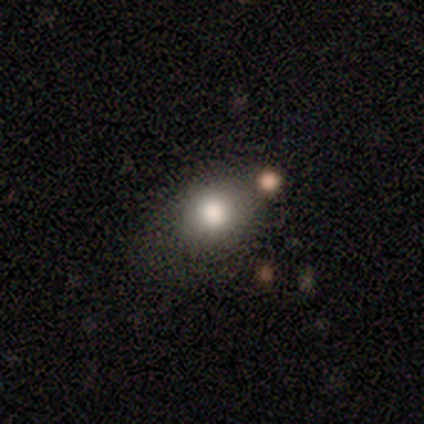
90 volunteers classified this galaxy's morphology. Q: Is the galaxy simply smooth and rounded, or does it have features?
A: smooth — 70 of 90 (78%).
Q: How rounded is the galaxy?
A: round — 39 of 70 (56%).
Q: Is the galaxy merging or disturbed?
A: none — 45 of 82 (55%).